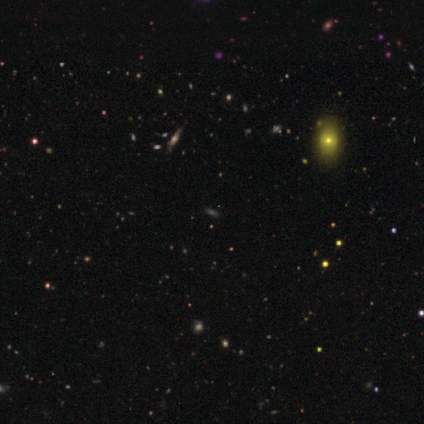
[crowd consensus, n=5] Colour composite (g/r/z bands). It shows a featured or disk galaxy (40%, tied with star or artifact) viewed edge-on (100%) with a rounded central bulge (100%). Merging: none (100%).